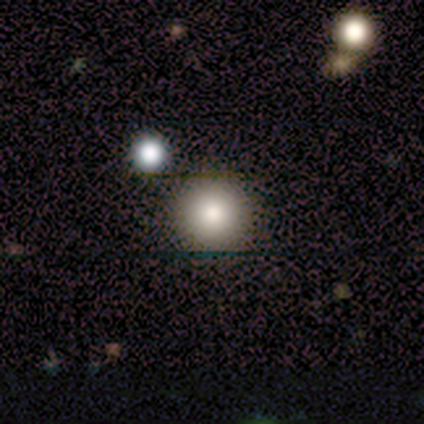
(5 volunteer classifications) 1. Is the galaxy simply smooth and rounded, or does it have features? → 100% smooth, 0% featured or disk, 0% star or artifact.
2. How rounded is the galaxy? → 100% round, 0% in between, 0% cigar-shaped.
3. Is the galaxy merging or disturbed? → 100% none, 0% minor disturbance, 0% major disturbance, 0% merger.